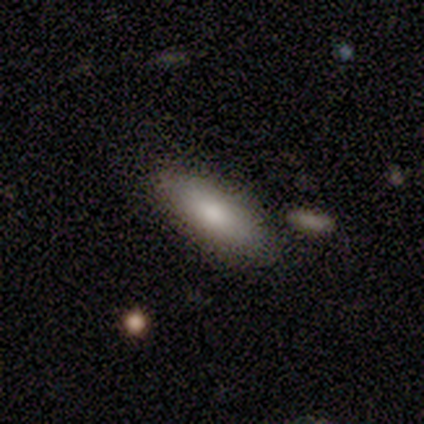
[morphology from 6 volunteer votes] This is likely a smooth galaxy (67%). How rounded: likely in between (75%). Merging: clearly none (100%).